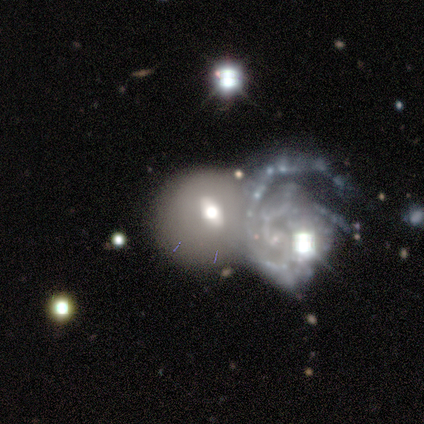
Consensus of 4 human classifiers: Q: Smooth or featured?
A: featured or disk (100%)
Q: Edge-on disk?
A: no (100%)
Q: Bar?
A: no (75%); runner-up: weak (25%)
Q: Spiral arms?
A: yes (50%); tied with: no (50%)
Q: Spiral winding?
A: medium (50%); tied with: loose (50%)
Q: Spiral arm count?
A: 3 (50%); tied with: can't tell (50%)
Q: Bulge size?
A: large (50%); tied with: moderate (50%)
Q: Merging?
A: merger (75%); runner-up: none (25%)